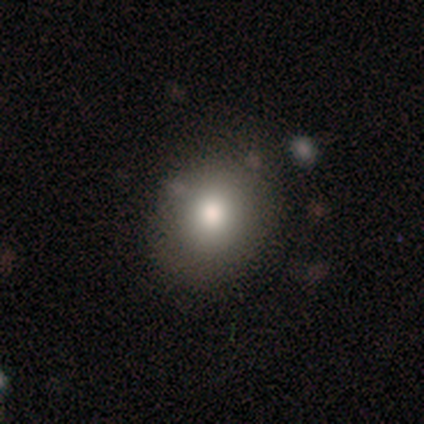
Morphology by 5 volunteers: Overall: smooth (80%). How rounded: round (50%, tied with in between). Merging: none (80%).